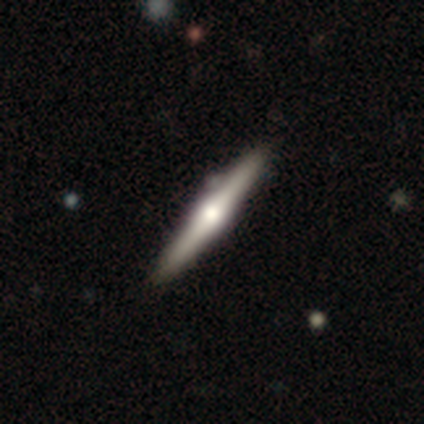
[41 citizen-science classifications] Smooth or featured: featured or disk — 66% (smooth — 32%)
Edge-on disk: yes — 100%
Edge-on bulge: rounded — 89% (boxy — 7%)
Merging: none — 88% (minor disturbance — 8%)